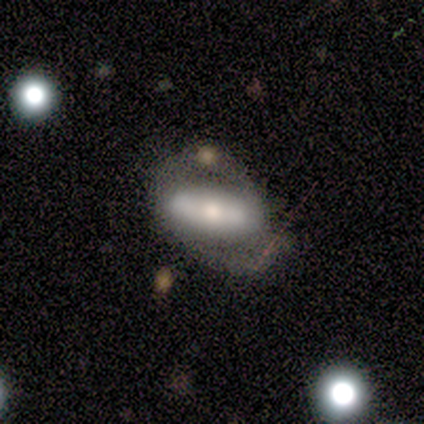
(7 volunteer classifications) This appears to be a smooth galaxy with no disk features (43%, tied with featured or disk) that is in between round and cigar-shaped (67%). Merging: none (50%).